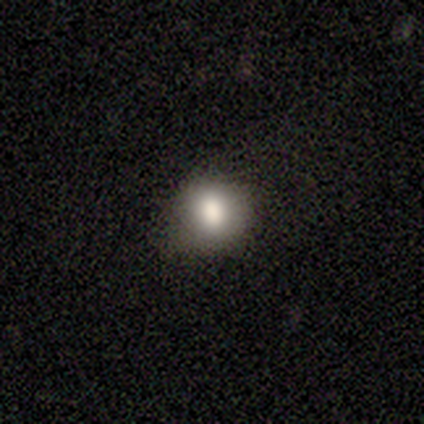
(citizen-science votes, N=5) Smooth or featured?
  - smooth: 100% *
  - featured or disk: 0%
  - star or artifact: 0%
How rounded?
  - round: 80% *
  - in between: 20%
  - cigar-shaped: 0%
Merging?
  - none: 80% *
  - minor disturbance: 20%
  - major disturbance: 0%
  - merger: 0%